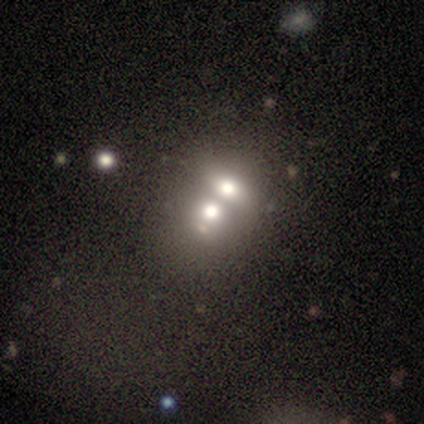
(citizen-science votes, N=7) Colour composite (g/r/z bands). It shows a smooth galaxy with no disk features (43%) that is round (67%). Merging: merger (100%).